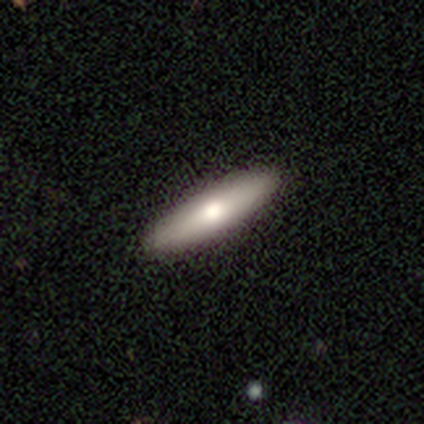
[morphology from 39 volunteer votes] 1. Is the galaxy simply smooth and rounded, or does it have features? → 74% smooth, 18% featured or disk, 8% star or artifact.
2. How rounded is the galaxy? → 69% cigar-shaped, 31% in between, 0% round.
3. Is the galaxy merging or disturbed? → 92% none, 6% minor disturbance, 3% major disturbance, 0% merger.